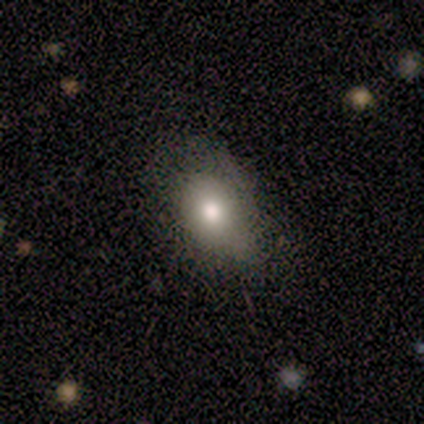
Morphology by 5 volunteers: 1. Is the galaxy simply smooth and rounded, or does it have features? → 80% smooth, 20% featured or disk, 0% star or artifact.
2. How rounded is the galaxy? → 100% in between, 0% round, 0% cigar-shaped.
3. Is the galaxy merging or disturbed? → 40% none (tied), 40% minor disturbance (tied), 20% major disturbance, 0% merger.